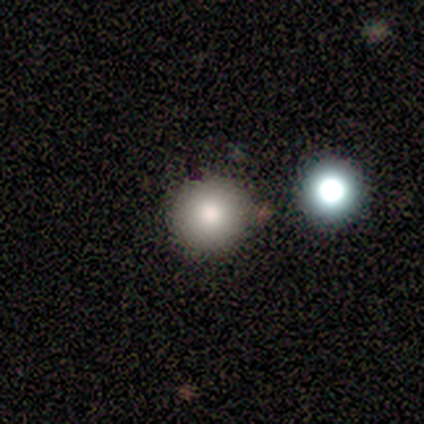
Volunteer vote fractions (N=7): A smooth galaxy with no disk features (57%) that is round (100%). Merging: none (67%).